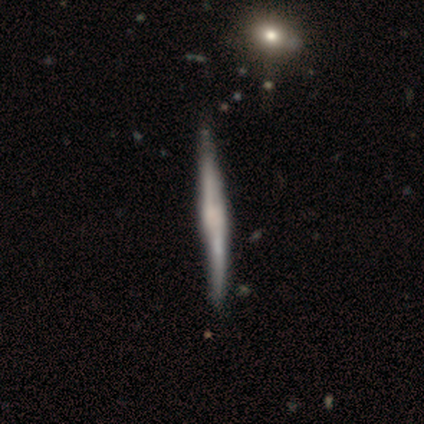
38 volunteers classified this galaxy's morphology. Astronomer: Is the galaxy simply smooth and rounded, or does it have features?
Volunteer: featured or disk — 82%.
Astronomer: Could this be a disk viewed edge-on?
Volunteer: yes — 97%.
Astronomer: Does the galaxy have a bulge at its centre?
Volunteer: rounded — 50% (runner-up: none, 30%).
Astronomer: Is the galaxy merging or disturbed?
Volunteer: none — 81%.